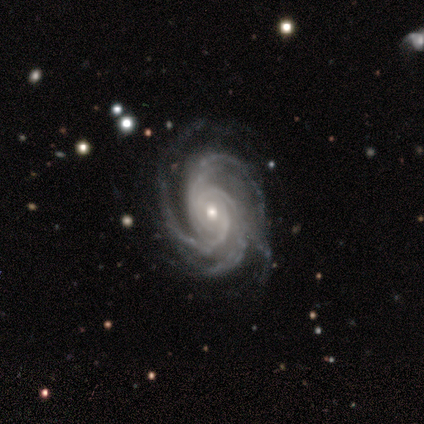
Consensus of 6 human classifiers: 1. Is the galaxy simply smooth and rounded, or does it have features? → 83% featured or disk, 17% star or artifact, 0% smooth.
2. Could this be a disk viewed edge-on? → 100% no, 0% yes.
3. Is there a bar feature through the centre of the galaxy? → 60% no, 40% weak, 0% strong.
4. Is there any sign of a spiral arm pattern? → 100% yes, 0% no.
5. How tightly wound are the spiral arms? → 60% tight, 40% medium, 0% loose.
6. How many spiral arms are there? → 80% 4, 20% more than 4, 0% 1, 0% 2, 0% 3, 0% can't tell.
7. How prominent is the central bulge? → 80% moderate, 20% small, 0% dominant, 0% large, 0% none.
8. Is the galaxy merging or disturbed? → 80% minor disturbance, 20% none, 0% major disturbance, 0% merger.